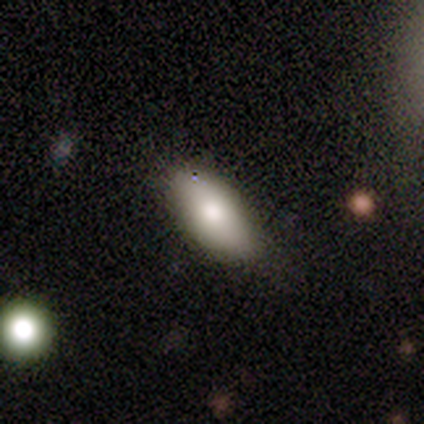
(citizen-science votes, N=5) A smooth galaxy with no disk features (100%) that is in between round and cigar-shaped (100%).

Vote fractions:
- Smooth or featured? smooth: 100% / featured or disk: 0% / star or artifact: 0%
- How rounded? in between: 100% / round: 0% / cigar-shaped: 0%
- Merging? none: 100% / minor disturbance: 0% / major disturbance: 0% / merger: 0%